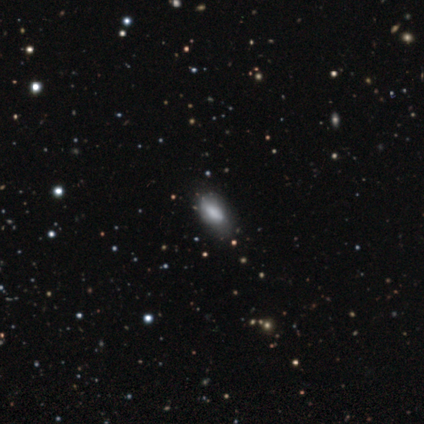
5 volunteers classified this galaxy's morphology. This is marginally a smooth galaxy (40%, tied with star or artifact). How rounded: possibly in between (50%, tied with cigar-shaped). Merging: likely none (67%).